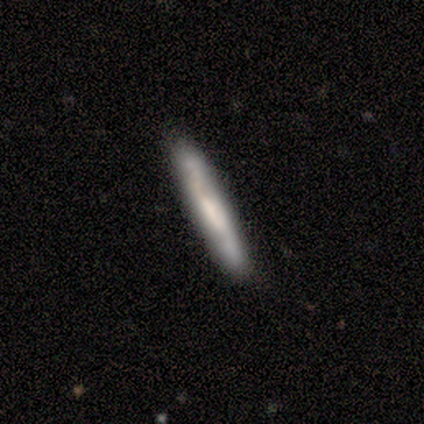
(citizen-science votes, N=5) smooth_or_featured: smooth (p=0.60) [alt: featured or disk p=0.40]
how_rounded: cigar-shaped (p=1.00)
merging: none (p=0.80) [alt: minor disturbance p=0.20]